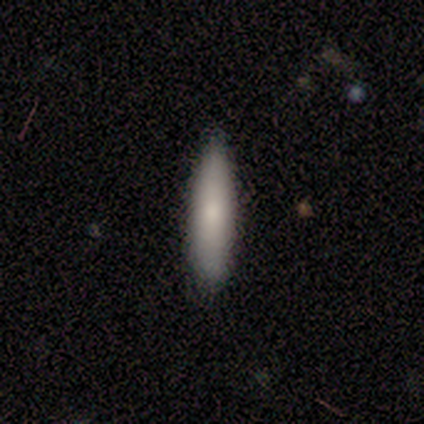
Smooth or featured? 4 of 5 (80%) said smooth. How rounded? 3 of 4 (75%) said cigar-shaped. Merging? 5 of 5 (100%) said none.